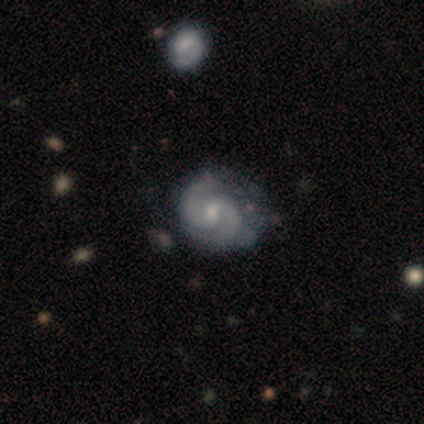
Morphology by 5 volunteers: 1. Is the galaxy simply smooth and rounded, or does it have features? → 100% featured or disk, 0% smooth, 0% star or artifact.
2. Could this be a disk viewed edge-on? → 100% no, 0% yes.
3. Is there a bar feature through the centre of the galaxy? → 60% weak, 40% strong, 0% no.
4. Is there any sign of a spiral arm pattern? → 100% yes, 0% no.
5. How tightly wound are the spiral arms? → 40% medium (tied), 40% loose (tied), 20% tight.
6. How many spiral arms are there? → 100% 2, 0% 1, 0% 3, 0% 4, 0% more than 4, 0% can't tell.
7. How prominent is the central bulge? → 60% small, 40% moderate, 0% dominant, 0% large, 0% none.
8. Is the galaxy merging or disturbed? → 60% none, 40% minor disturbance, 0% major disturbance, 0% merger.